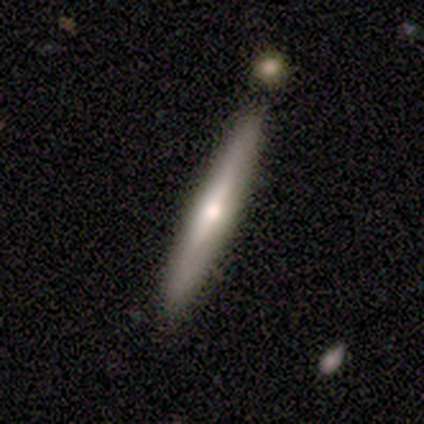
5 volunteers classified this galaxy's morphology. Volunteers were most divided on "smooth or featured": smooth: 60%, featured or disk: 40%, star or artifact: 0%. More confident: how rounded — cigar-shaped (100%); merging — none (80%).